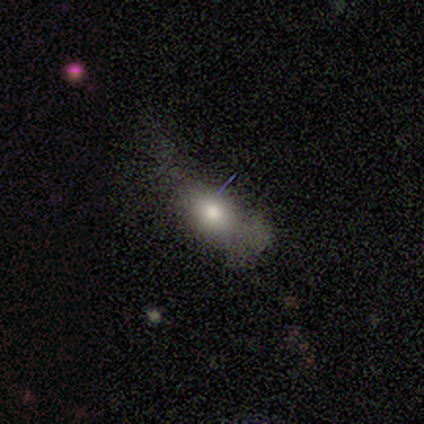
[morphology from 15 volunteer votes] A smooth galaxy with no disk features (87%) that is in between round and cigar-shaped (77%). Merging: major disturbance (43%).